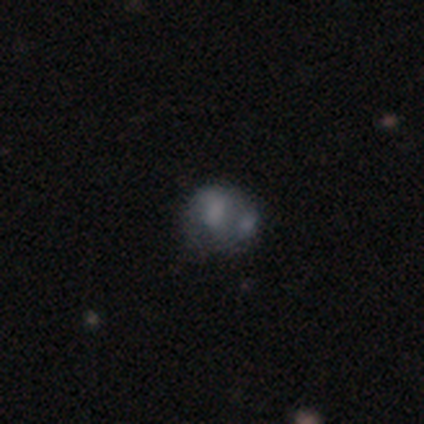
Morphology: type=smooth (80%); roundness=round (75%); merging=minor disturbance (40%).